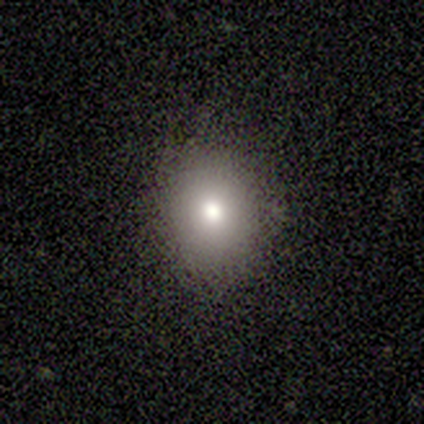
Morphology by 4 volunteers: Smooth or featured: smooth — 75% (featured or disk — 25%)
How rounded: round — 67% (in between — 33%)
Merging: none — 75% (minor disturbance — 25%)